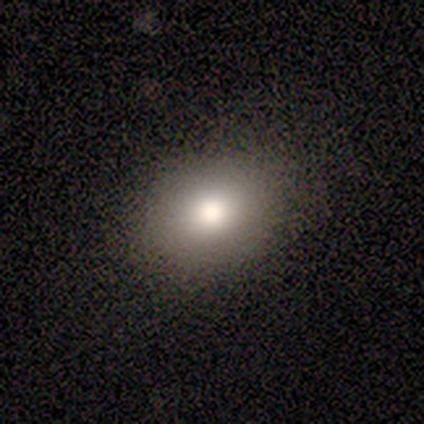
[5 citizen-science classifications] This appears to be a smooth galaxy with no disk features (100%) that is round (60%). Merging: none (80%).